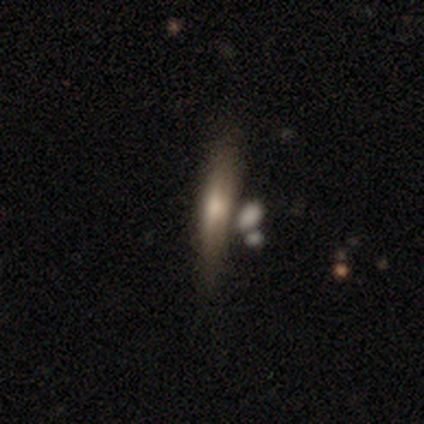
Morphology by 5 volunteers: smooth_or_featured: smooth (p=0.60) [alt: featured or disk p=0.40]
how_rounded: cigar-shaped (p=1.00)
merging: none (p=0.60) [alt: merger p=0.40]